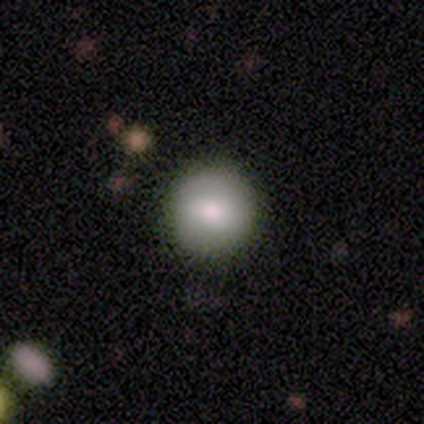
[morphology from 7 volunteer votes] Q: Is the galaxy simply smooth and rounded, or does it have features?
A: smooth — 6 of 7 (86%).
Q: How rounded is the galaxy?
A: round — 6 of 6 (100%).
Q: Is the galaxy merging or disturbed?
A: none — 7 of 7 (100%).